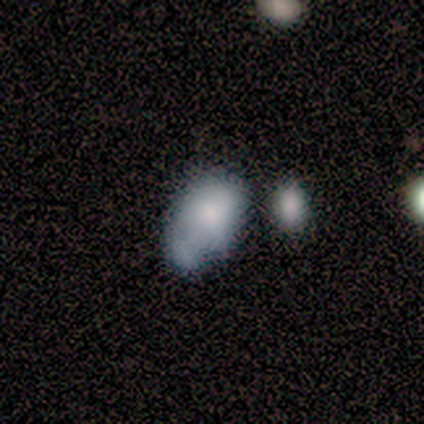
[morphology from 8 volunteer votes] This is likely a smooth galaxy (75%). How rounded: clearly in between (83%). Merging: marginally none (43%).